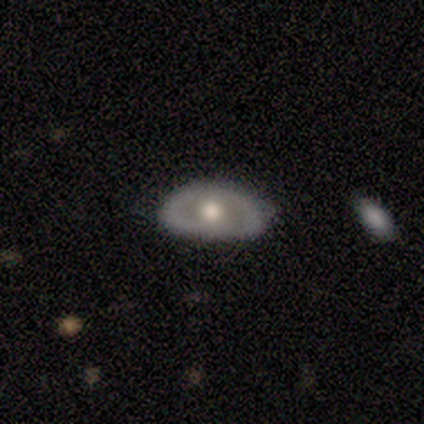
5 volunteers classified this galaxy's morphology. featured or disk 80%, smooth 20%, star or artifact 0%. Down the decision tree: edge-on disk — no (75%); bar — no (100%); spiral arms — no (67%); bulge size — moderate (67%); merging — none (80%).